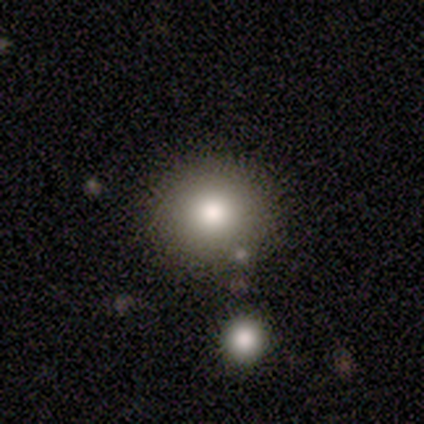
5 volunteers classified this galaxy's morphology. smooth 80%, star or artifact 20%, featured or disk 0%. Down the decision tree: how rounded — round (100%); merging — none (50%).